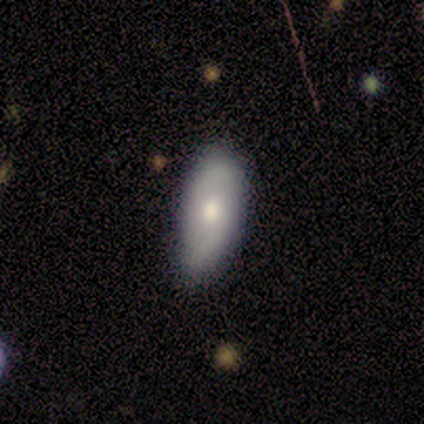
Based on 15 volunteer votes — Q: Smooth or featured?
A: featured or disk (53%); runner-up: smooth (47%)
Q: Edge-on disk?
A: no (100%)
Q: Bar?
A: no (75%); runner-up: strong (12%)
Q: Spiral arms?
A: yes (62%); runner-up: no (38%)
Q: Spiral winding?
A: loose (80%); runner-up: tight (20%)
Q: Spiral arm count?
A: 2 (100%)
Q: Bulge size?
A: moderate (88%); runner-up: small (12%)
Q: Merging?
A: none (67%); runner-up: minor disturbance (20%)